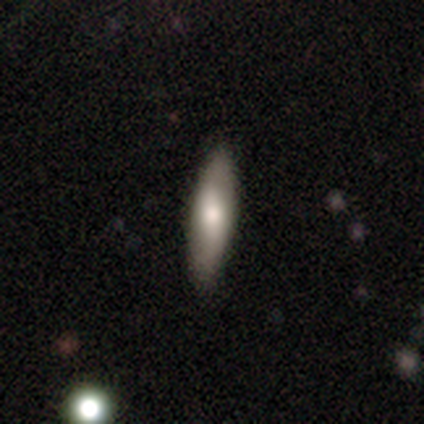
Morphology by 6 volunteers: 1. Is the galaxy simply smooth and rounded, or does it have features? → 67% smooth, 17% featured or disk, 17% star or artifact.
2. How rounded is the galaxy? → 50% in between (tied), 50% cigar-shaped (tied), 0% round.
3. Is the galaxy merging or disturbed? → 80% none, 20% minor disturbance, 0% major disturbance, 0% merger.